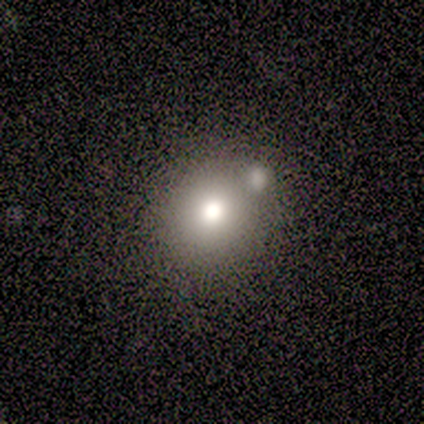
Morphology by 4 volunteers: Q: Smooth or featured?
A: smooth (50%); runner-up: featured or disk (25%)
Q: How rounded?
A: round (100%)
Q: Merging?
A: none (100%)